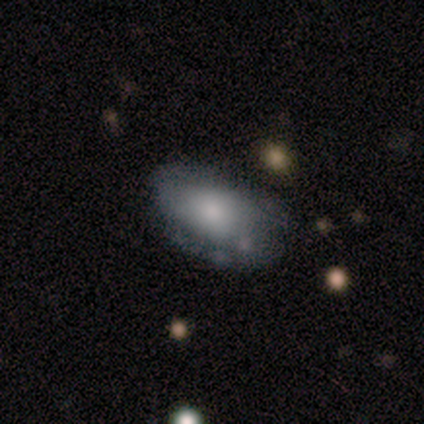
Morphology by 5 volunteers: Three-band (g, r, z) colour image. It shows a featured or disk galaxy (60%) with no bar (100%), 2 (100%) tight (50%, tied with medium) spiral arms (100%) and a moderate central bulge (50%, tied with none). Merging: none (80%).